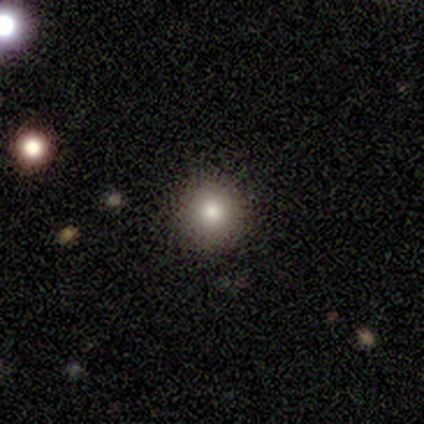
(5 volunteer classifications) Smooth or featured? 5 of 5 (100%) said smooth. How rounded? 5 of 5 (100%) said round. Merging? 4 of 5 (80%) said none.